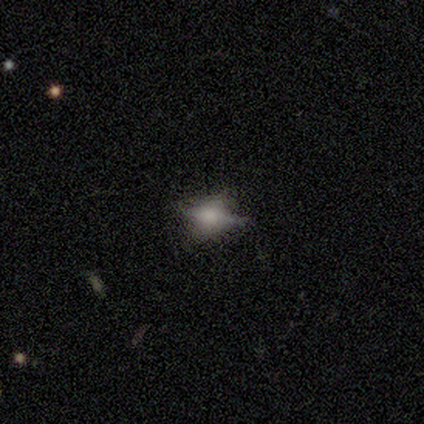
A smooth galaxy with no disk features (49%) that is in between round and cigar-shaped (89%).

Vote fractions:
- Smooth or featured? smooth: 49% / featured or disk: 31% / star or artifact: 21%
- How rounded? in between: 89% / round: 11% / cigar-shaped: 0%
- Merging? none: 52% / minor disturbance: 32% / major disturbance: 10% / merger: 6%